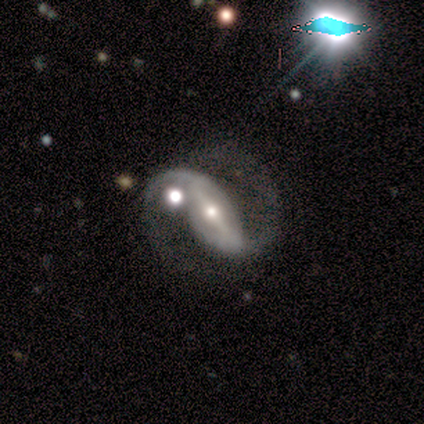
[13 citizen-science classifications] Smooth or featured? featured or disk (92%)
Edge-on disk? no (100%)
Bar? strong (75%)
Spiral arms? yes (100%)
Spiral winding? medium (50%, tied with loose)
Spiral arm count? 2 (100%)
Bulge size? moderate (58%)
Merging? none (77%)